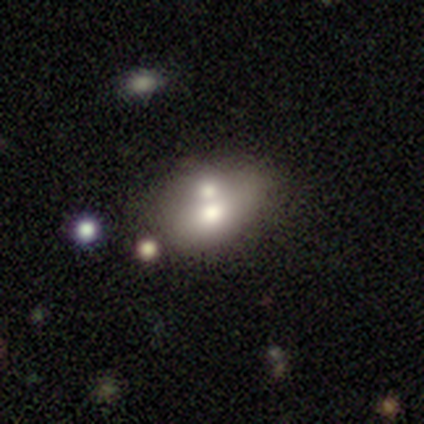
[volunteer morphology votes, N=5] A smooth galaxy with no disk features (40%, tied with star or artifact) that is round (50%, tied with in between). Merging: merger (67%).